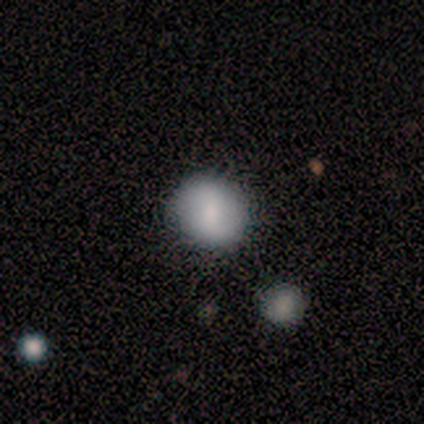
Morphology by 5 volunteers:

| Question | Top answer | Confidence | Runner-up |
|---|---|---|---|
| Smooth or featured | smooth | 40% | tied: featured or disk (40%) |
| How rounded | round | 100% | — |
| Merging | none | 100% | — |